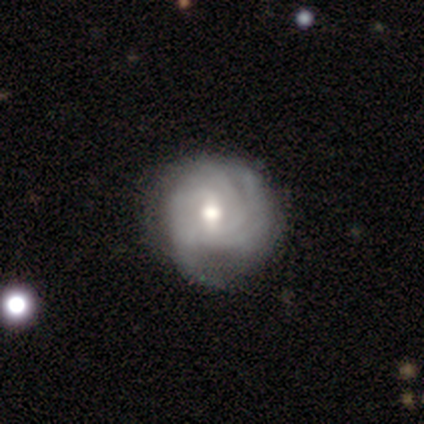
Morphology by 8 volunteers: featured or disk 100%, smooth 0%, star or artifact 0%. Down the decision tree: edge-on disk — no (100%); bar — weak (50%); spiral arms — yes (75%); spiral arm count — 3 (67%); spiral winding — tight (50%); bulge size — moderate (88%); merging — none (75%).